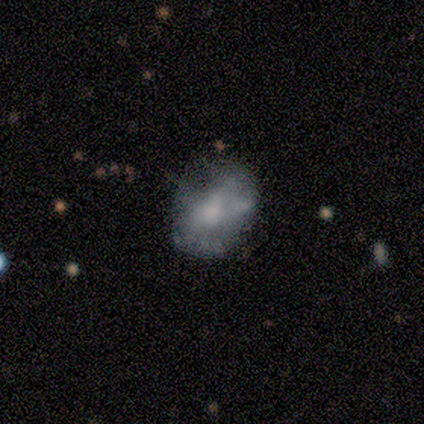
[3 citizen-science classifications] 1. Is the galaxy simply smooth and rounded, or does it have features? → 67% smooth, 33% featured or disk, 0% star or artifact.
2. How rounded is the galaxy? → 100% in between, 0% round, 0% cigar-shaped.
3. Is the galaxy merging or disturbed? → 67% minor disturbance, 33% none, 0% major disturbance, 0% merger.